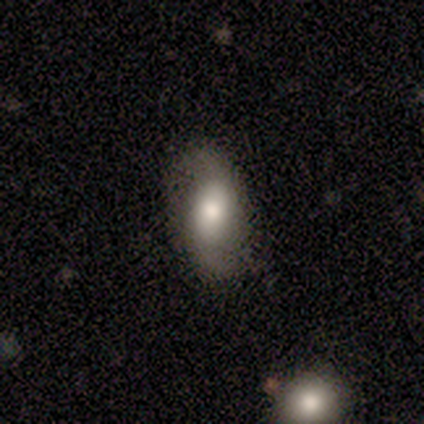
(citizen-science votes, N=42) Smooth or featured?
  - smooth: 52% *
  - featured or disk: 38%
  - star or artifact: 10%
How rounded?
  - in between: 82% *
  - round: 18%
  - cigar-shaped: 0%
Merging?
  - none: 71% *
  - minor disturbance: 21%
  - major disturbance: 5%
  - merger: 3%